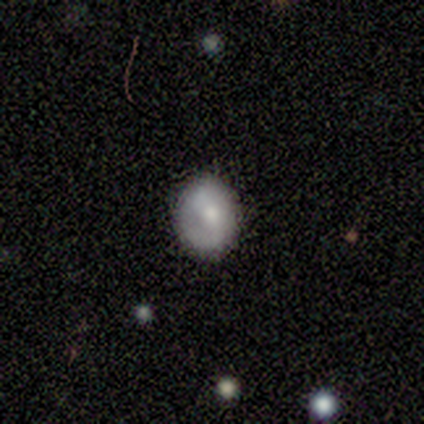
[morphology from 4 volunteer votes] smooth_or_featured: smooth (p=0.75) [alt: featured or disk p=0.25]
how_rounded: in between (p=0.67) [alt: round p=0.33]
merging: none (p=1.00)